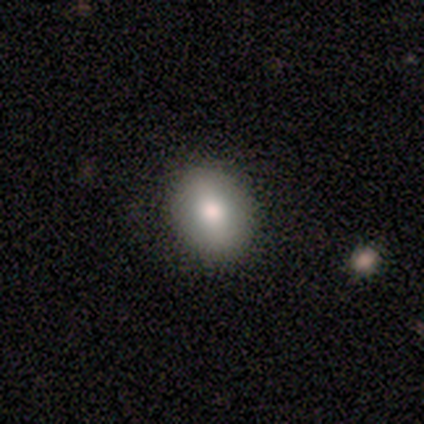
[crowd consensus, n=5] A smooth galaxy with no disk features (60%) that is round (67%). Merging: none (100%).